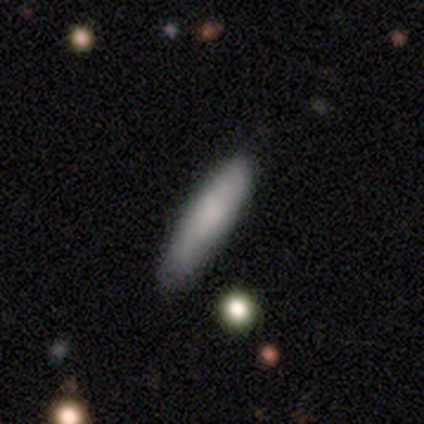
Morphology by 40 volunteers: Q: Smooth or featured?
A: smooth (85%); runner-up: featured or disk (12%)
Q: How rounded?
A: cigar-shaped (76%); runner-up: in between (21%)
Q: Merging?
A: none (82%); runner-up: minor disturbance (13%)